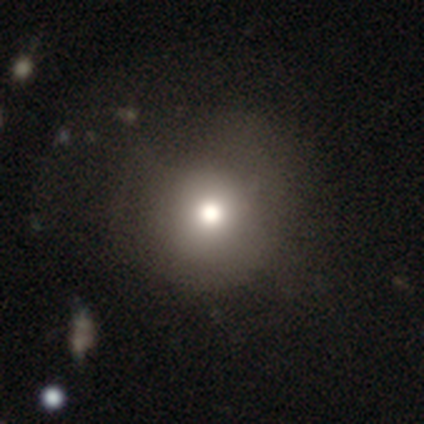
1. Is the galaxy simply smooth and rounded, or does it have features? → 80% smooth, 20% featured or disk, 0% star or artifact.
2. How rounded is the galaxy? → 100% round, 0% in between, 0% cigar-shaped.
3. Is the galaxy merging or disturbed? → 80% none, 20% major disturbance, 0% minor disturbance, 0% merger.